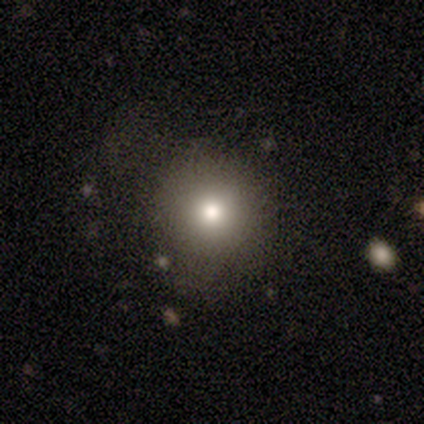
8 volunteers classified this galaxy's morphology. This appears to be a smooth galaxy with no disk features (75%) that is round (100%). Merging: none (100%).